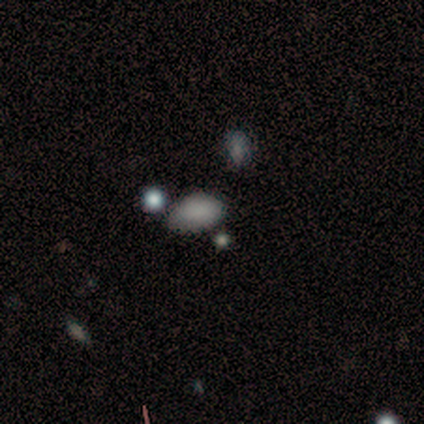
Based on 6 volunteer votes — Smooth or featured? 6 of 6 (100%) said smooth. How rounded? 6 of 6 (100%) said in between. Merging? 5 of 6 (83%) said none.